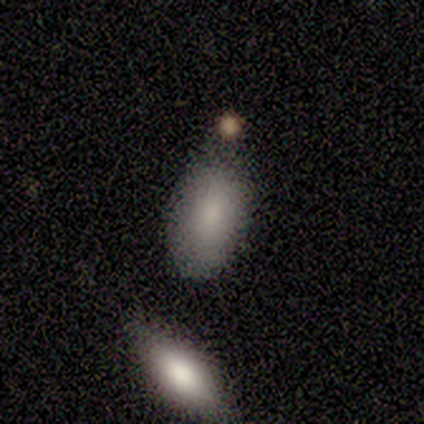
Smooth or featured?
  - smooth: 50% * (tied)
  - star or artifact: 50% * (tied)
  - featured or disk: 0%
How rounded?
  - in between: 100% *
  - round: 0%
  - cigar-shaped: 0%
Merging?
  - none: 100% *
  - minor disturbance: 0%
  - major disturbance: 0%
  - merger: 0%